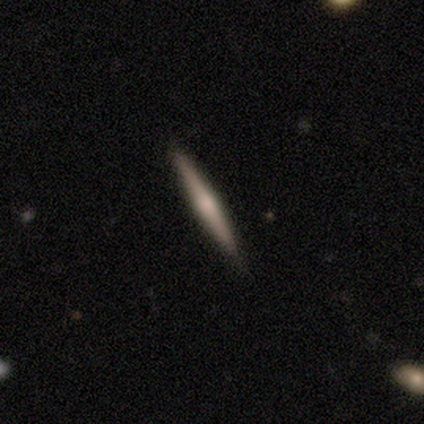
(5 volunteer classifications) smooth_or_featured: smooth (p=0.40) [tied with: featured or disk p=0.40]
how_rounded: in between (p=0.50) [tied with: cigar-shaped p=0.50]
merging: none (p=1.00)